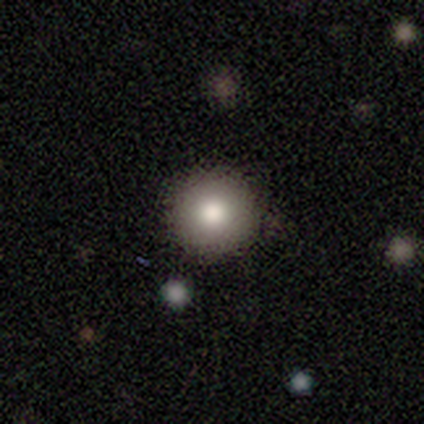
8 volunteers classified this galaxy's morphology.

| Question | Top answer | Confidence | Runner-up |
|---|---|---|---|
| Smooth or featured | smooth | 75% | featured or disk (12%) |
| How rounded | round | 100% | — |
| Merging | none | 71% | minor disturbance (29%) |